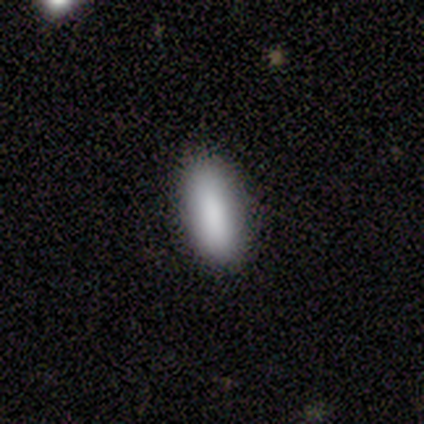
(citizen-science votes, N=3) Smooth or featured: smooth — 67% (star or artifact — 33%)
How rounded: in between — 100%
Merging: none — 100%